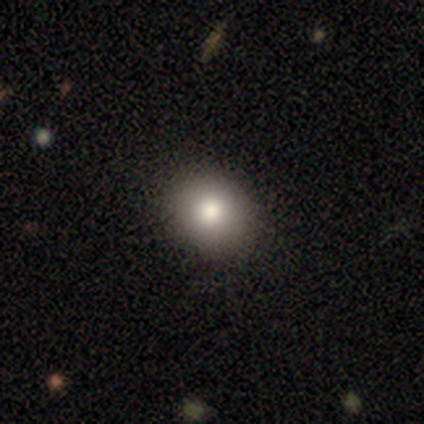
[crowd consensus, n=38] Volunteers were most divided on "how rounded": round: 81%, in between: 19%, cigar-shaped: 0%. More confident: merging — none (97%); smooth or featured — smooth (82%).